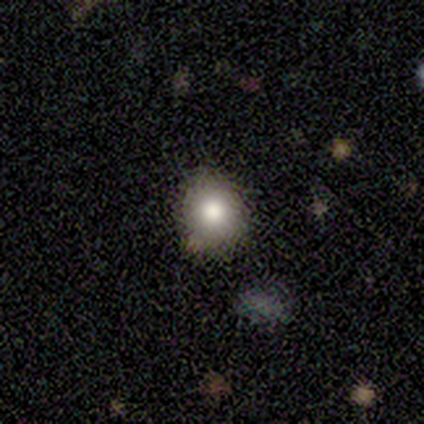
Volunteers were most divided on "how rounded": round: 75%, in between: 25%, cigar-shaped: 0%. More confident: merging — none (88%); smooth or featured — smooth (76%).